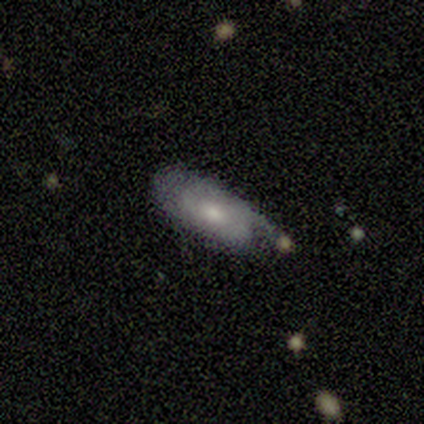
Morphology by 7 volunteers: This is likely a smooth galaxy (71%). How rounded: clearly in between (100%). Merging: possibly minor disturbance (57%).